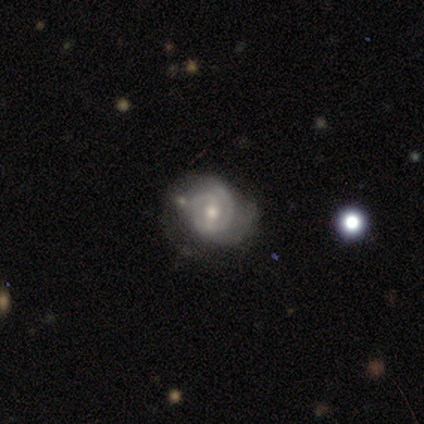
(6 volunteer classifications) This appears to be a featured or disk galaxy (67%) with a weak bar (50%), 2 (50%) tight (75%) spiral arms (100%) and a moderate central bulge (75%). Merging: major disturbance (67%).